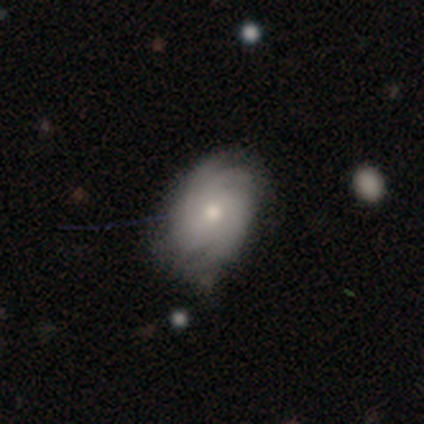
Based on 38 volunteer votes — Smooth or featured? 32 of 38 (84%) said featured or disk. Edge-on disk? 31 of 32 (97%) said no. Bar? 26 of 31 (84%) said no. Spiral arms? 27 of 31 (87%) said yes. Spiral winding? 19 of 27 (70%) said tight. Spiral arm count? 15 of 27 (56%) said can't tell. Bulge size? 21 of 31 (68%) said moderate. Merging? 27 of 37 (73%) said none.